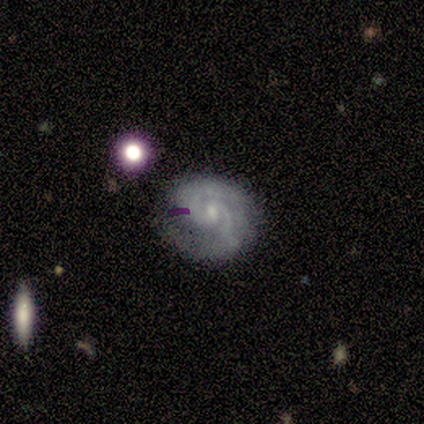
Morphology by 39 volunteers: Smooth or featured: featured or disk — 82% (smooth — 13%)
Edge-on disk: no — 100%
Bar: weak — 53% (no — 34%)
Spiral arms: yes — 97% (no — 3%)
Spiral winding: tight — 55% (medium — 45%)
Spiral arm count: 2 — 90% (3 — 3%)
Bulge size: small — 78% (moderate — 12%)
Merging: none — 70% (minor disturbance — 22%)